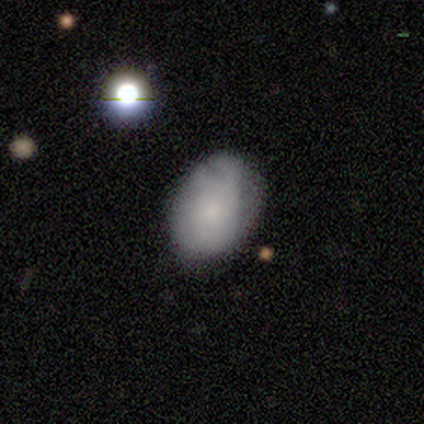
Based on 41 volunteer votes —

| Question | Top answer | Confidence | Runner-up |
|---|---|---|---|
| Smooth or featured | smooth | 73% | featured or disk (17%) |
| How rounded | in between | 87% | round (13%) |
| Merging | none | 62% | minor disturbance (30%) |